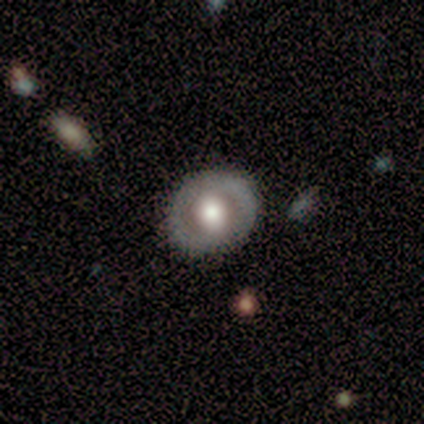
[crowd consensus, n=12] Smooth or featured: featured or disk — 75% (smooth — 25%)
Edge-on disk: no — 100%
Bar: weak — 44% (strong — 33%)
Spiral arms: no — 78% (yes — 22%)
Bulge size: moderate — 56% (large — 44%)
Merging: none — 75% (minor disturbance — 17%)